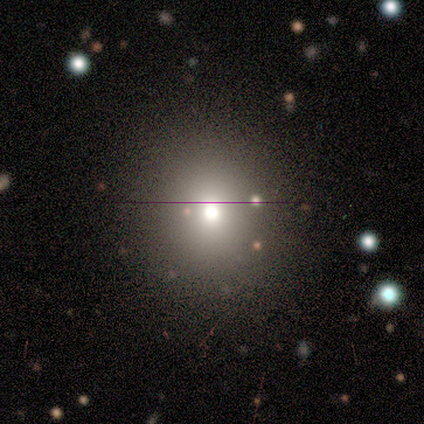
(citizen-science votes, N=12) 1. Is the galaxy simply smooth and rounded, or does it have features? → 58% smooth, 33% star or artifact, 8% featured or disk.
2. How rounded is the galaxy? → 100% round, 0% in between, 0% cigar-shaped.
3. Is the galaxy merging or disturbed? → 100% none, 0% minor disturbance, 0% major disturbance, 0% merger.